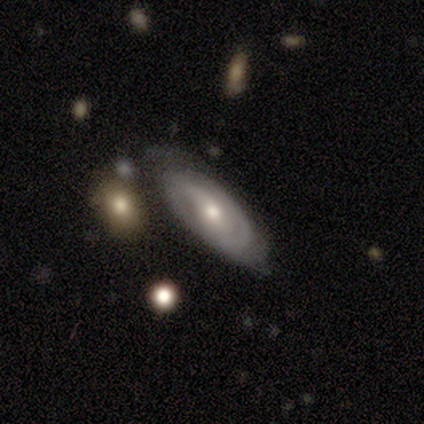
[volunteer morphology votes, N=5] Smooth or featured? 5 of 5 (100%) said featured or disk. Edge-on disk? 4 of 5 (80%) said no. Bar? 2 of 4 (50%) said weak. Spiral arms? 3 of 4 (75%) said yes. Spiral winding? 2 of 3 (67%) said tight. Spiral arm count? 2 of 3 (67%) said 2. Bulge size? 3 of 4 (75%) said moderate. Merging? 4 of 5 (80%) said none.